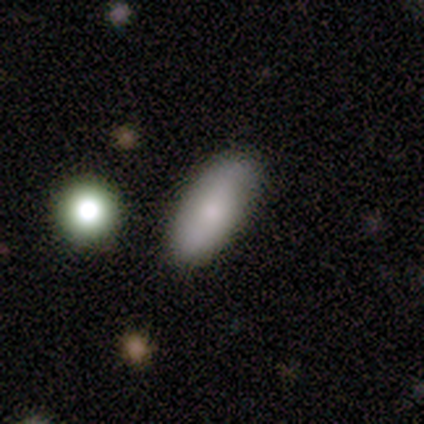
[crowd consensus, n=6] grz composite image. It shows a smooth galaxy with no disk features (67%) that is in between round and cigar-shaped (100%). Merging: none (67%).